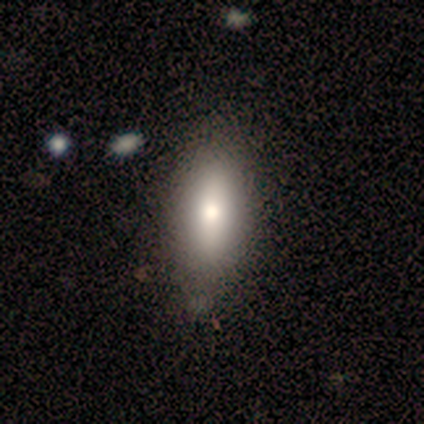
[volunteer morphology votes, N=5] A smooth galaxy with no disk features (40%, tied with featured or disk) that is round (50%, tied with in between). Merging: none (100%).